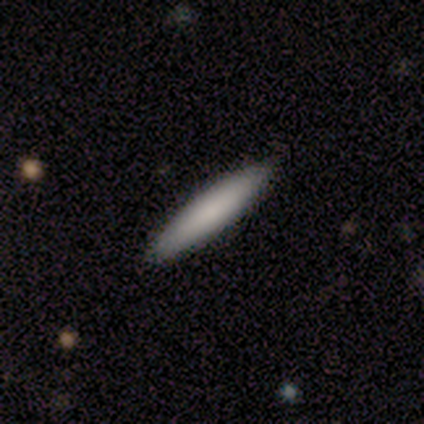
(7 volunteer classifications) smooth-or-featured: smooth: 71% | featured or disk: 14% | star or artifact: 14%
  how-rounded: cigar-shaped: 80% | in between: 20% | round: 0%
  merging: none: 100% | minor disturbance: 0% | major disturbance: 0% | merger: 0%